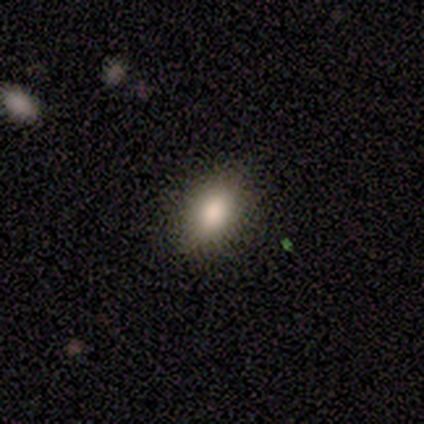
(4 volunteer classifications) Overall: smooth (100%). How rounded: in between (100%). Merging: none (75%).